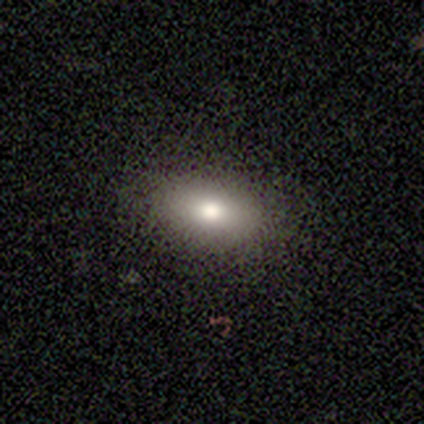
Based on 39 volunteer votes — Overall: smooth (79%). How rounded: in between (81%). Merging: none (91%).